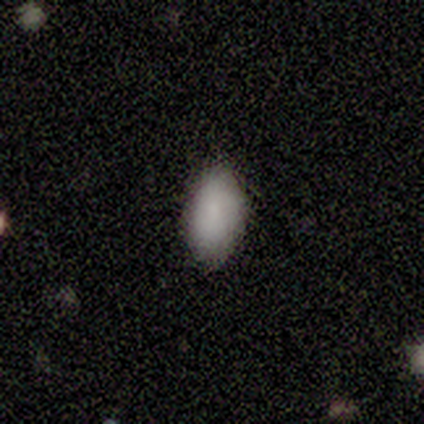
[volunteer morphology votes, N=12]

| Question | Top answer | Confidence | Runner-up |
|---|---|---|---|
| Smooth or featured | smooth | 83% | featured or disk (17%) |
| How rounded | in between | 100% | — |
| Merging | none | 92% | minor disturbance (8%) |